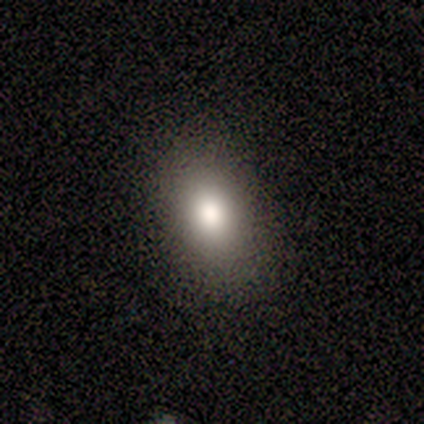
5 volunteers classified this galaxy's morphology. type=smooth (80%); roundness=round (50%, tied with in between); merging=none (75%).